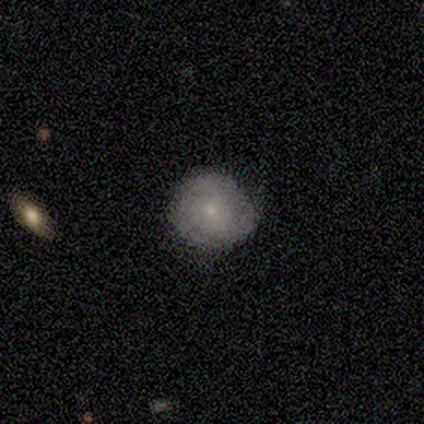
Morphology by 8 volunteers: Volunteers were most divided on "spiral winding": tight: 67%, medium: 33%, loose: 0%. More confident: edge-on disk — no (100%); bar — no (100%); spiral arms — yes (100%); bulge size — small (100%); smooth or featured — featured or disk (75%); merging — none (75%); spiral arm count — 3 (67%).